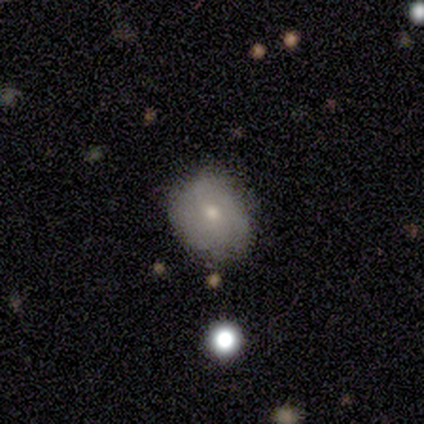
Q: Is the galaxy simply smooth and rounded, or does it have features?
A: smooth — 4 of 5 (80%).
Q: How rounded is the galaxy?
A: round — 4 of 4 (100%).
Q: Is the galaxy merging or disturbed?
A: none — 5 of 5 (100%).